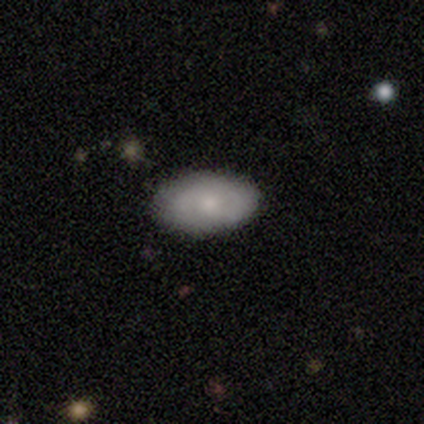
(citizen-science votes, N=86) Smooth or featured? 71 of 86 (83%) said smooth. How rounded? 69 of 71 (97%) said in between. Merging? 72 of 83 (87%) said none.